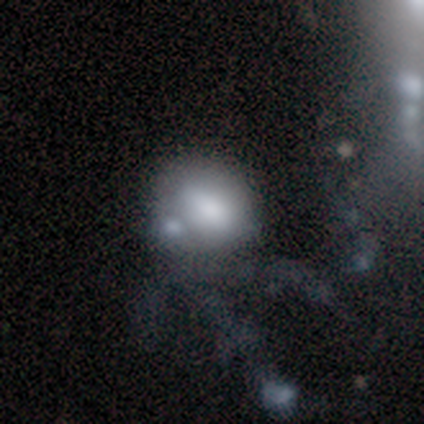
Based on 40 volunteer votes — smooth-or-featured: smooth: 68% | featured or disk: 20% | star or artifact: 12%
  how-rounded: in between: 52% | round: 44% | cigar-shaped: 4%
  merging: merger: 29% | minor disturbance: 20% | major disturbance: 17% | none: 14%